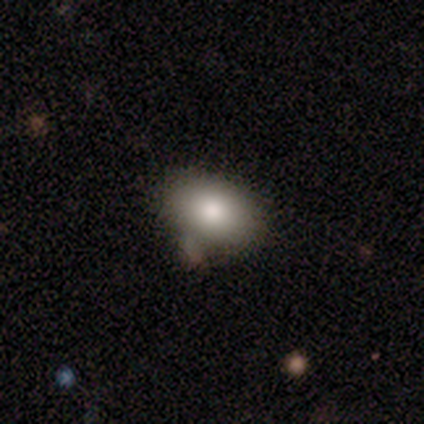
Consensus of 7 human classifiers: smooth 86%, star or artifact 14%, featured or disk 0%. Down the decision tree: how rounded — in between (83%); merging — none (67%).